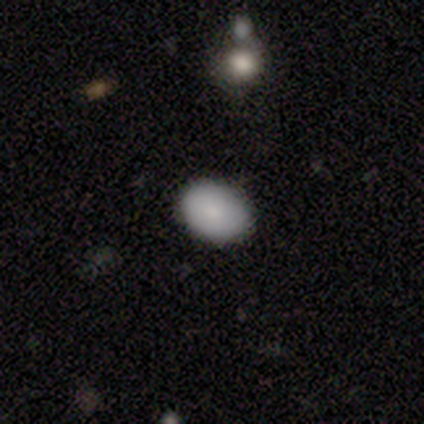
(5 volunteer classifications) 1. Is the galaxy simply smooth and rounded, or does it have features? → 100% smooth, 0% featured or disk, 0% star or artifact.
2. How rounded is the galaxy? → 60% in between, 40% round, 0% cigar-shaped.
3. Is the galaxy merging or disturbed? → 100% none, 0% minor disturbance, 0% major disturbance, 0% merger.